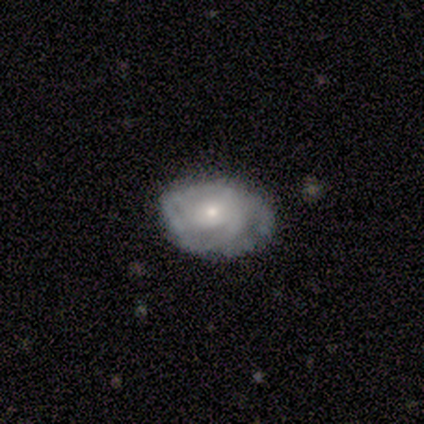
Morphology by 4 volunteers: Smooth or featured?
  - smooth: 50% * (tied)
  - featured or disk: 50% * (tied)
  - star or artifact: 0%
How rounded?
  - in between: 100% *
  - round: 0%
  - cigar-shaped: 0%
Merging?
  - none: 75% *
  - minor disturbance: 25%
  - major disturbance: 0%
  - merger: 0%